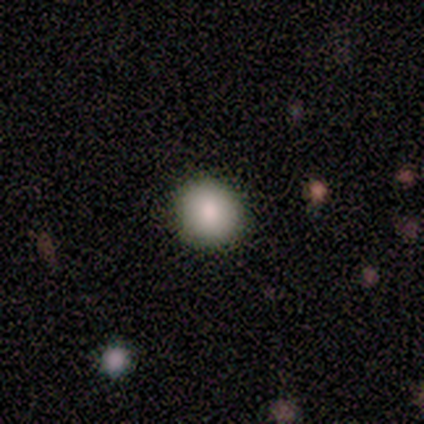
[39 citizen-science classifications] Overall: smooth (90%). How rounded: round (91%). Merging: none (92%).